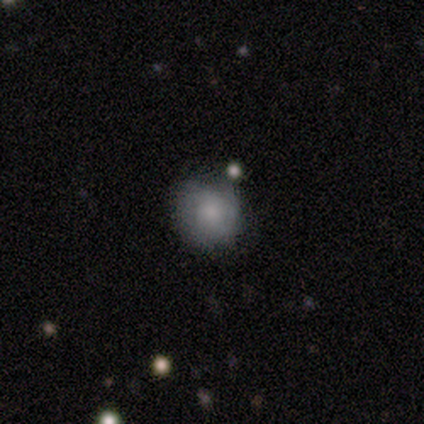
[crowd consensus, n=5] Q: Smooth or featured?
A: smooth (100%)
Q: How rounded?
A: round (80%); runner-up: in between (20%)
Q: Merging?
A: none (60%); runner-up: minor disturbance (40%)